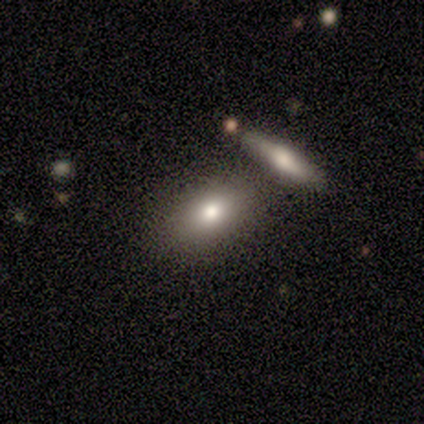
smooth 67%, star or artifact 33%, featured or disk 0%. Down the decision tree: how rounded — round (50%, tied with in between); merging — minor disturbance (50%, tied with merger).